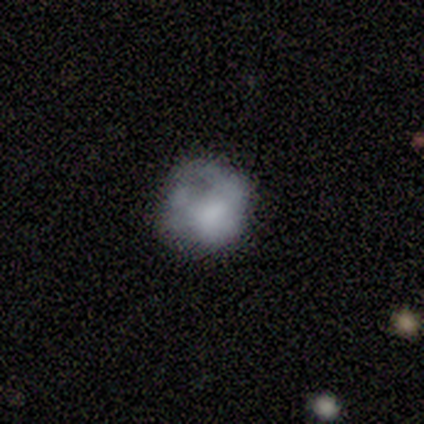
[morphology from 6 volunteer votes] A smooth galaxy with no disk features (50%) that is round (67%). Merging: major disturbance (60%).